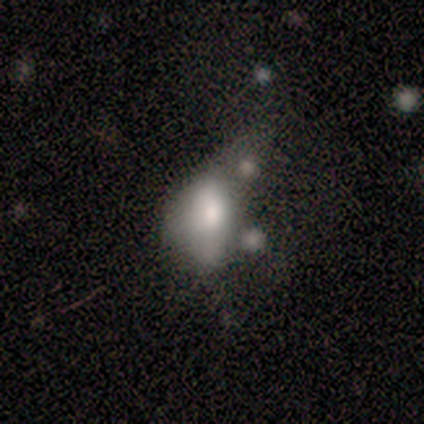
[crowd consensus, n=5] Smooth or featured?
  - smooth: 80% *
  - featured or disk: 20%
  - star or artifact: 0%
How rounded?
  - in between: 75% *
  - round: 25%
  - cigar-shaped: 0%
Merging?
  - merger: 60% *
  - minor disturbance: 20%
  - major disturbance: 20%
  - none: 0%